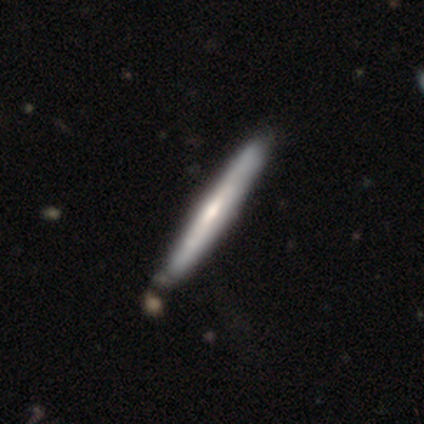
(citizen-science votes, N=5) smooth_or_featured: featured or disk (p=0.80) [alt: smooth p=0.20]
disk_edge_on: yes (p=1.00)
edge_on_bulge: rounded (p=0.75) [alt: none p=0.25]
merging: none (p=1.00)